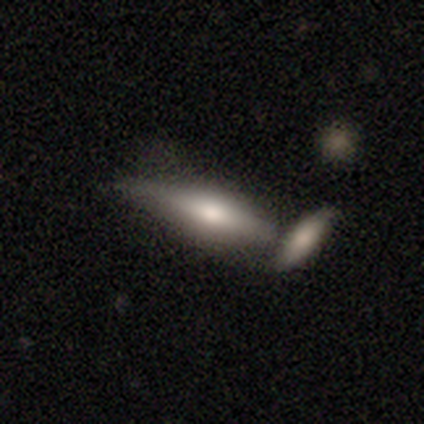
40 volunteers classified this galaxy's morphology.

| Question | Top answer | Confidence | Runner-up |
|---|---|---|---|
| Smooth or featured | smooth | 57% | featured or disk (32%) |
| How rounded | cigar-shaped | 74% | in between (26%) |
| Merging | minor disturbance | 33% | tied: merger (33%) |